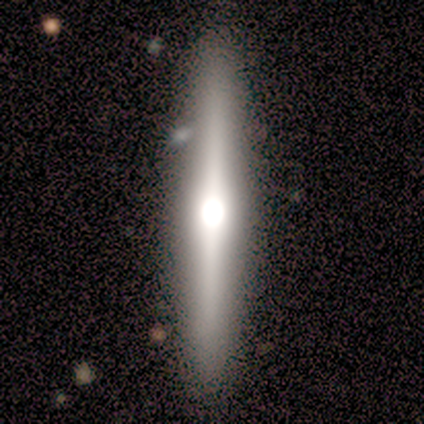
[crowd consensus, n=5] A featured or disk galaxy (80%) viewed edge-on (100%) with a rounded central bulge (75%). Merging: none (60%).